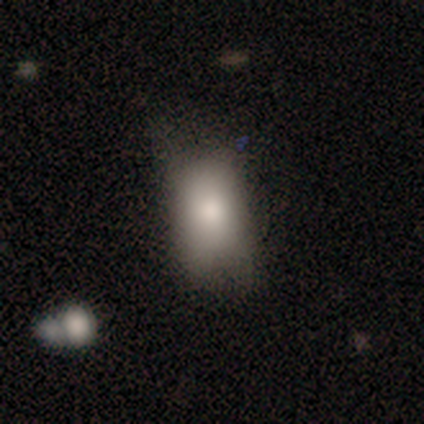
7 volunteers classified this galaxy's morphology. smooth_or_featured: smooth (p=0.57) [alt: featured or disk p=0.43]
how_rounded: in between (p=1.00)
merging: minor disturbance (p=0.57) [alt: major disturbance p=0.29]